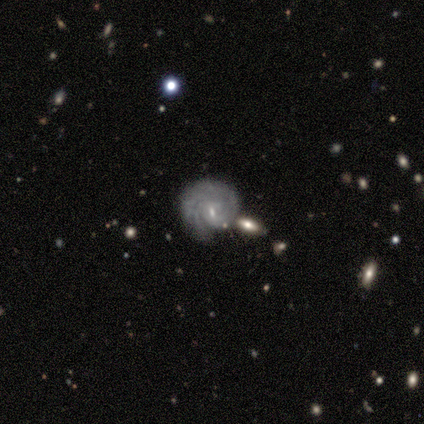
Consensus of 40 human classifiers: Smooth or featured? 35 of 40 (88%) said featured or disk. Edge-on disk? 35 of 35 (100%) said no. Bar? 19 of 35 (54%) said weak. Spiral arms? 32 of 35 (91%) said yes. Spiral winding? 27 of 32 (84%) said tight. Spiral arm count? 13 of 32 (41%) said 2. Bulge size? 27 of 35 (77%) said small. Merging? 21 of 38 (55%) said none.